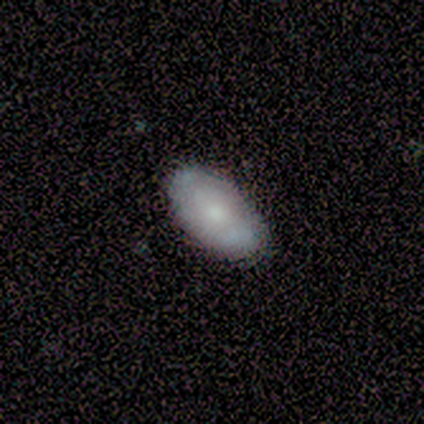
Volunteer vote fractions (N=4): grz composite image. It shows a smooth galaxy with no disk features (75%) that is in between round and cigar-shaped (100%). Merging: none (100%).